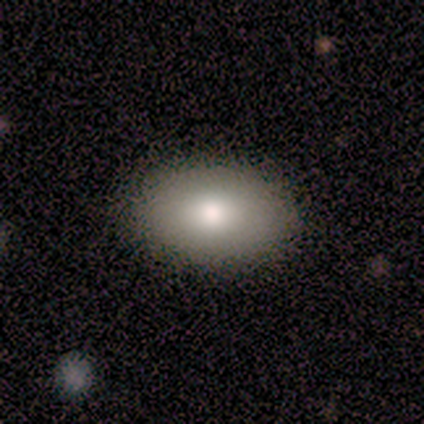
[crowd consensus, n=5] Smooth or featured? 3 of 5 (60%) said smooth. How rounded? 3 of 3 (100%) said in between. Merging? 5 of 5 (100%) said none.